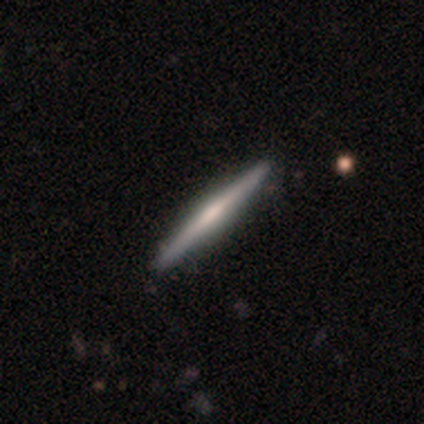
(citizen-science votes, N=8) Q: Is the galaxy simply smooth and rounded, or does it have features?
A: featured or disk — 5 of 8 (62%).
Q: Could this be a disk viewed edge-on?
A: yes — 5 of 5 (100%).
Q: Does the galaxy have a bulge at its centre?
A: rounded — 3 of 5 (60%).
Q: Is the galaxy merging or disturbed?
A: none — 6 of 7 (86%).